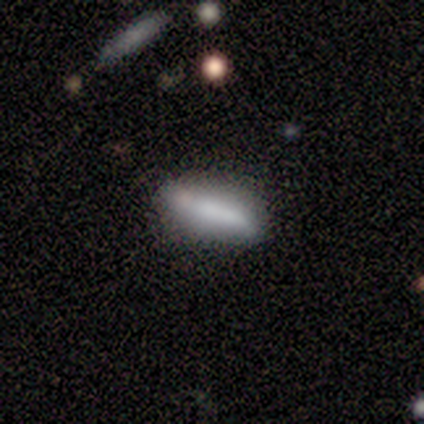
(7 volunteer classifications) smooth-or-featured: featured or disk: 57% | smooth: 43% | star or artifact: 0%
  disk-edge-on: no: 75% | yes: 25%
    bar: no: 67% | weak: 33% | strong: 0%
    has-spiral-arms: no: 67% | yes: 33%
    bulge-size: moderate: 67% | none: 33% | dominant: 0% | large: 0% | small: 0%
  merging: none: 71% | minor disturbance: 14% | merger: 14% | major disturbance: 0%